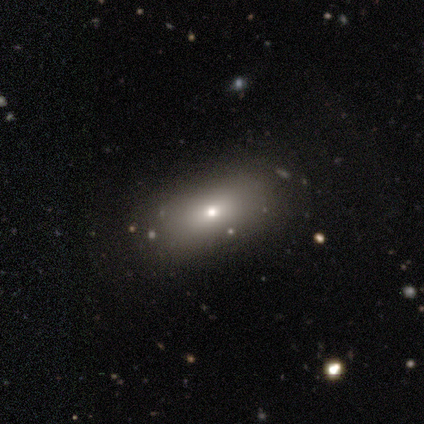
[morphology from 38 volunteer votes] Smooth or featured? 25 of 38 (66%) said smooth. How rounded? 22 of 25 (88%) said in between. Merging? 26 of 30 (87%) said none.